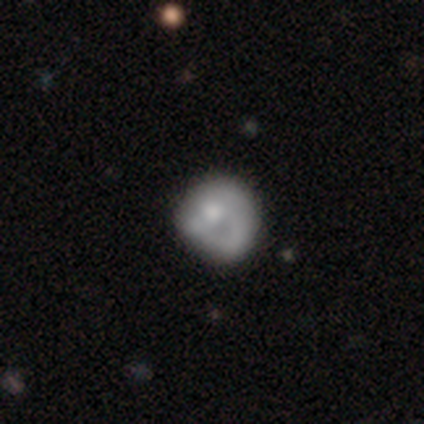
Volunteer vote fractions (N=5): This appears to be a featured or disk galaxy (80%) with no bar (75%), 1 (100%) loose (67%) spiral arms (75%) and a moderate central bulge (75%). Merging: minor disturbance (40%).